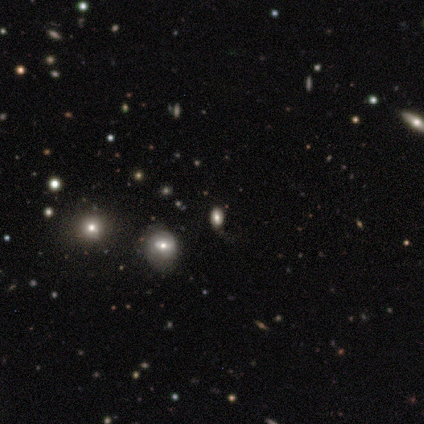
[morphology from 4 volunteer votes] Smooth or featured? 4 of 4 (100%) said smooth. How rounded? 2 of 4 (50%, tied with in between) said round. Merging? 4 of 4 (100%) said none.